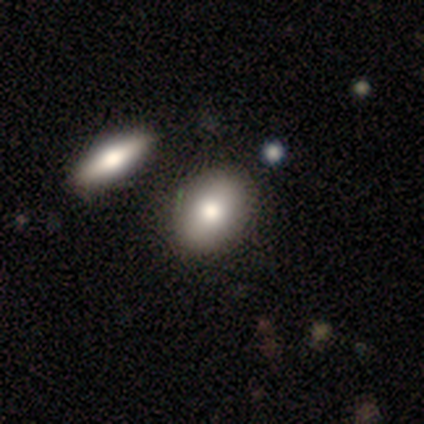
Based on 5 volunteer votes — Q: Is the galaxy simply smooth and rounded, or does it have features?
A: smooth — 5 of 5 (100%).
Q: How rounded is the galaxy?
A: in between — 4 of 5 (80%).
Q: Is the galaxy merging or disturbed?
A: none — 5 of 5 (100%).